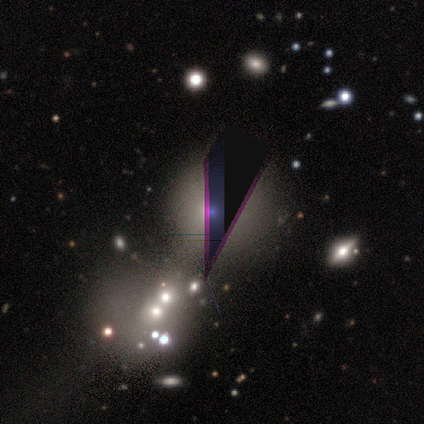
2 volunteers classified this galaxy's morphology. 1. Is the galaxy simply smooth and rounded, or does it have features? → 100% star or artifact, 0% smooth, 0% featured or disk.